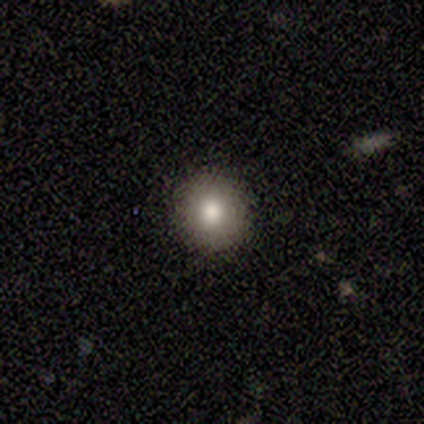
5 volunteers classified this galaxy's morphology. smooth 100%, featured or disk 0%, star or artifact 0%. Down the decision tree: how rounded — round (100%); merging — none (80%).